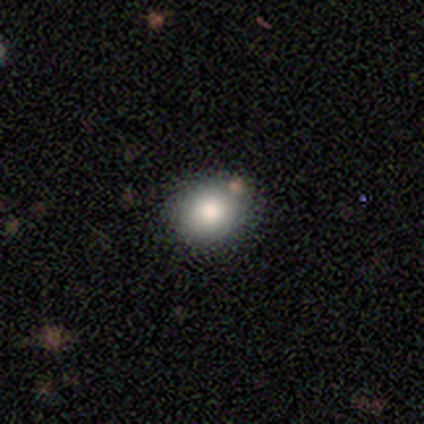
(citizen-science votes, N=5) smooth 80%, star or artifact 20%, featured or disk 0%. Down the decision tree: how rounded — round (100%); merging — none (75%).